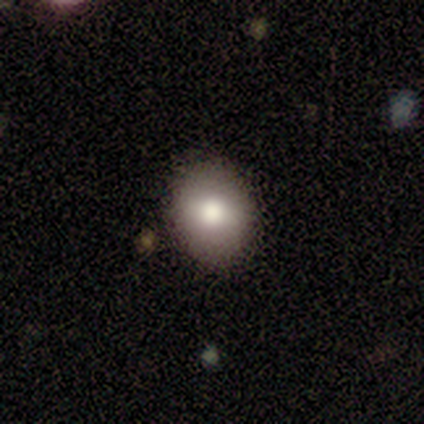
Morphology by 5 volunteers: A smooth galaxy with no disk features (80%) that is round (75%). Merging: none (60%).